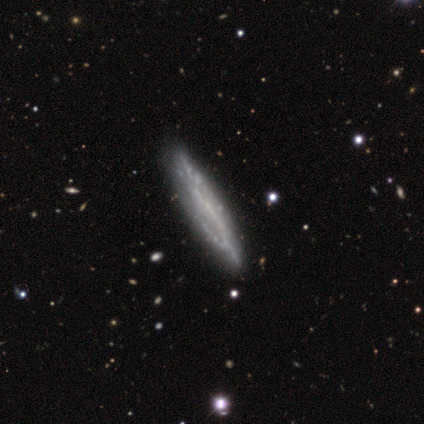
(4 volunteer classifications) Volunteers were most divided on "edge-on disk": yes: 75%, no: 25%. More confident: smooth or featured — featured or disk (100%); edge-on bulge — none (100%); merging — none (100%).